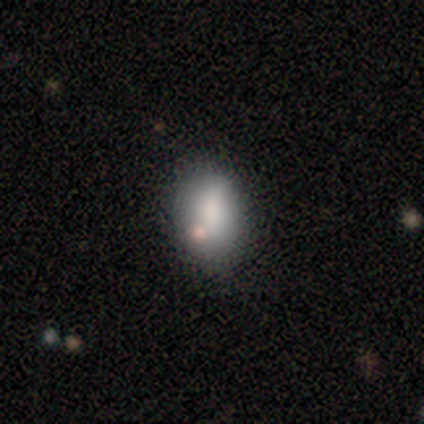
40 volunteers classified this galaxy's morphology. smooth-or-featured: smooth: 75% | featured or disk: 15% | star or artifact: 10%
  how-rounded: in between: 77% | round: 23% | cigar-shaped: 0%
  merging: none: 69% | minor disturbance: 14% | merger: 14% | major disturbance: 3%